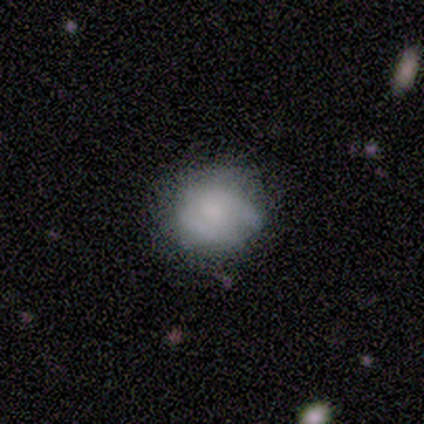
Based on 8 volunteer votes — Smooth or featured: smooth — 62% (featured or disk — 38%)
How rounded: round — 80% (in between — 20%)
Merging: none — 62% (minor disturbance — 38%)